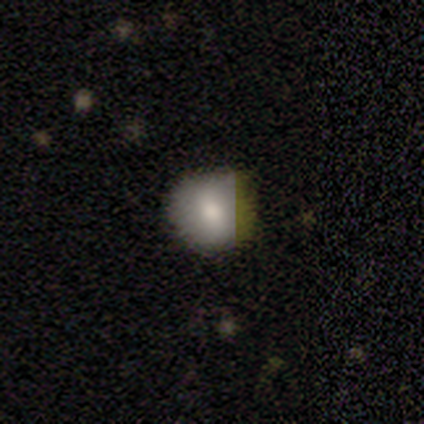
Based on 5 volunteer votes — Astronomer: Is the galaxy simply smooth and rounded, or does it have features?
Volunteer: smooth — 100%.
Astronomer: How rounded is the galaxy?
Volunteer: round — 80%.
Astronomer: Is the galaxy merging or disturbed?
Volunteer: none — 100%.